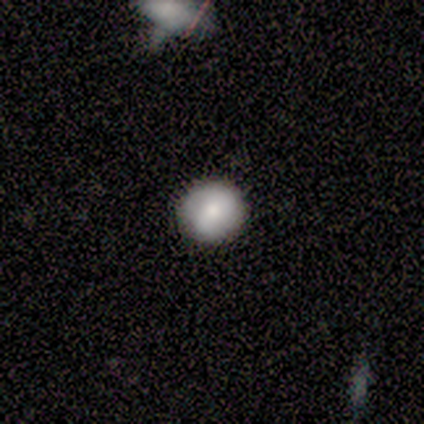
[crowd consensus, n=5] Volunteers were most divided on "smooth or featured": smooth: 60%, featured or disk: 40%, star or artifact: 0%. More confident: how rounded — round (100%); merging — none (100%).